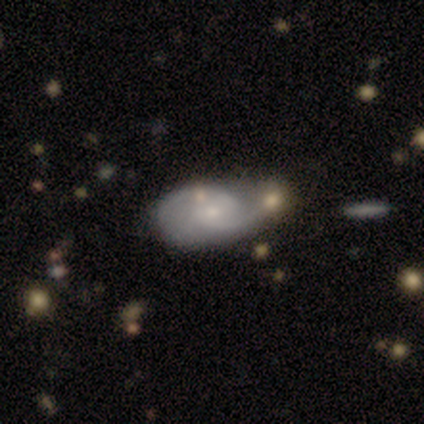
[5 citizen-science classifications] smooth_or_featured: featured or disk (p=0.40) [tied with: star or artifact p=0.40]
disk_edge_on: no (p=1.00)
bar: weak (p=0.50) [tied with: no p=0.50]
has_spiral_arms: yes (p=0.50) [tied with: no p=0.50]
spiral_winding: medium (p=1.00)
spiral_arm_count: 2 (p=1.00)
bulge_size: moderate (p=0.50) [tied with: small p=0.50]
merging: none (p=0.67) [alt: major disturbance p=0.33]